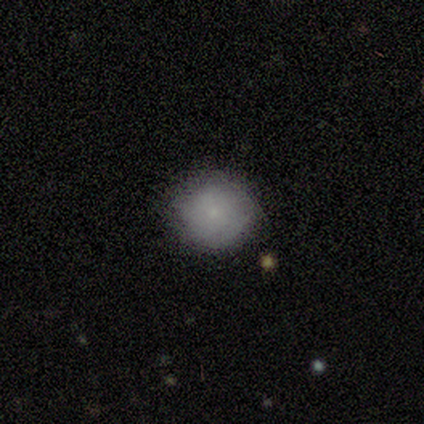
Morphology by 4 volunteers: Smooth or featured?
  - smooth: 100% *
  - featured or disk: 0%
  - star or artifact: 0%
How rounded?
  - round: 100% *
  - in between: 0%
  - cigar-shaped: 0%
Merging?
  - none: 100% *
  - minor disturbance: 0%
  - major disturbance: 0%
  - merger: 0%